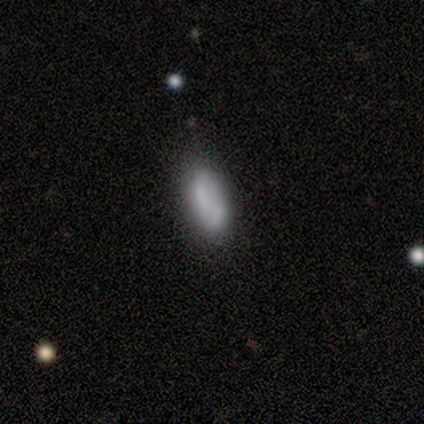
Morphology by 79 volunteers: This appears to be a smooth galaxy with no disk features (67%) that is in between round and cigar-shaped (91%). Merging: none (33%).